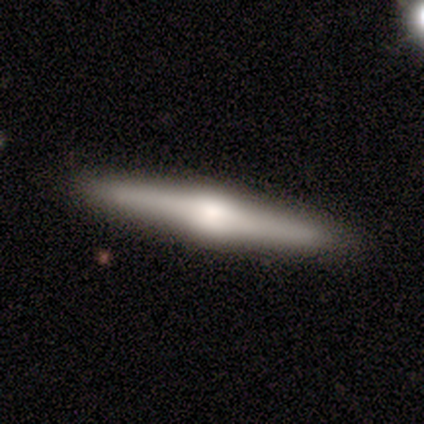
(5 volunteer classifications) smooth_or_featured: featured or disk (p=0.60) [alt: smooth p=0.40]
disk_edge_on: yes (p=1.00)
edge_on_bulge: rounded (p=1.00)
merging: none (p=0.80) [alt: major disturbance p=0.20]